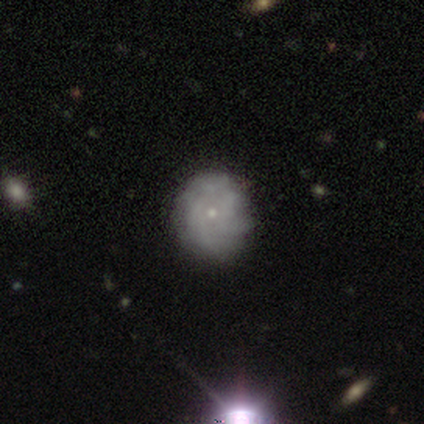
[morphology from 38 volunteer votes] Smooth or featured?
  - featured or disk: 79% *
  - smooth: 16%
  - star or artifact: 5%
Edge-on disk?
  - no: 100% *
  - yes: 0%
Bar?
  - no: 90% *
  - weak: 10%
  - strong: 0%
Spiral arms?
  - yes: 70% *
  - no: 30%
Spiral winding?
  - tight: 67% *
  - medium: 24%
  - loose: 10%
Spiral arm count?
  - more than 4: 38% * (tied)
  - can't tell: 38% * (tied)
  - 3: 14%
  - 2: 5%
  - 4: 5%
  - 1: 0%
Bulge size?
  - small: 93% *
  - moderate: 7%
  - dominant: 0%
  - large: 0%
  - none: 0%
Merging?
  - none: 58% *
  - minor disturbance: 8%
  - major disturbance: 0%
  - merger: 0%